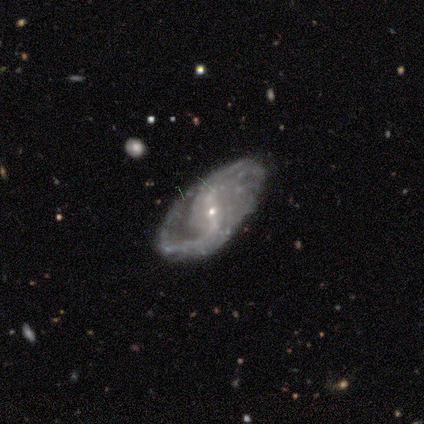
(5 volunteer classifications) A featured or disk galaxy (100%) with a strong bar (40%, tied with no), 2 (75%) medium (75%) spiral arms (80%) and a small central bulge (100%). Merging: minor disturbance (60%).